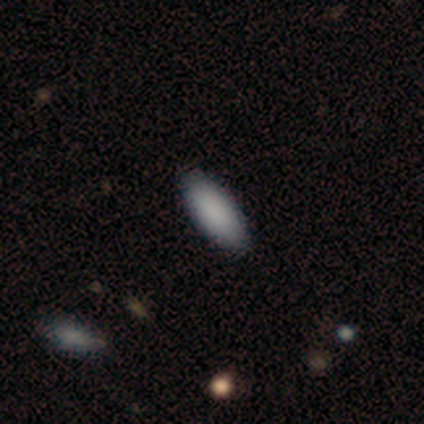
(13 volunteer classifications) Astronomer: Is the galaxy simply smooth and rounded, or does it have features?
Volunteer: smooth — 85%.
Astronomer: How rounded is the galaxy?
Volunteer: in between — 82%.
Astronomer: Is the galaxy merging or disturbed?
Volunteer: none — 82%.